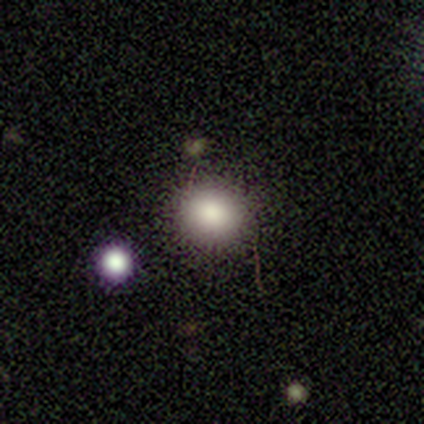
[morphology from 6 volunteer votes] Volunteers were most divided on "smooth or featured": smooth: 67%, star or artifact: 33%, featured or disk: 0%. More confident: how rounded — round (75%); merging — none (75%).